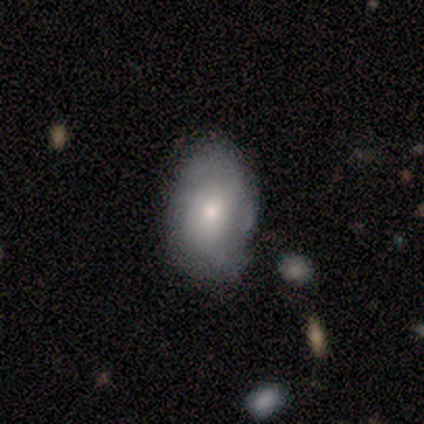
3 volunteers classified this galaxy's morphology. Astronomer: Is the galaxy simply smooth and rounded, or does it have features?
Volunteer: smooth — 67%.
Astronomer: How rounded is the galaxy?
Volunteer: in between — 100%.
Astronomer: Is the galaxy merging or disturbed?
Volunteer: none — 67%.